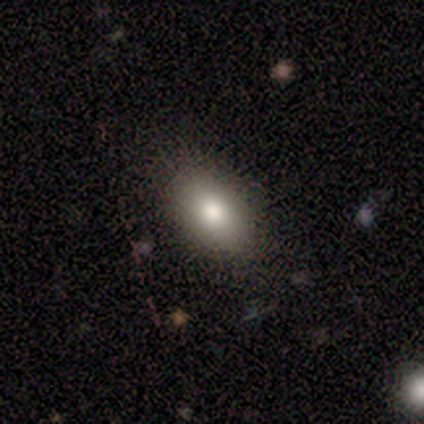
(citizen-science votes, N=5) smooth 40% (tied), featured or disk 40% (tied), star or artifact 20%. Down the decision tree: how rounded — in between (100%); merging — none (100%).